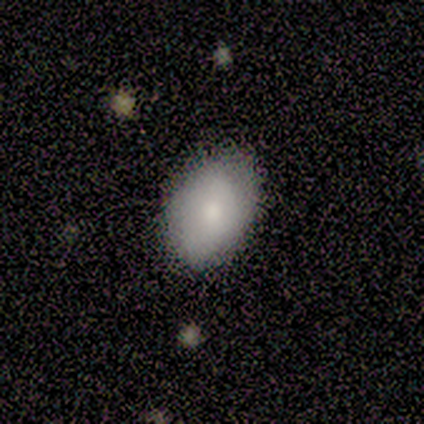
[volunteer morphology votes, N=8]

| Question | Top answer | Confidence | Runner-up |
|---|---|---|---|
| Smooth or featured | smooth | 75% | featured or disk (12%) |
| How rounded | in between | 100% | — |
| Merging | none | 86% | minor disturbance (14%) |